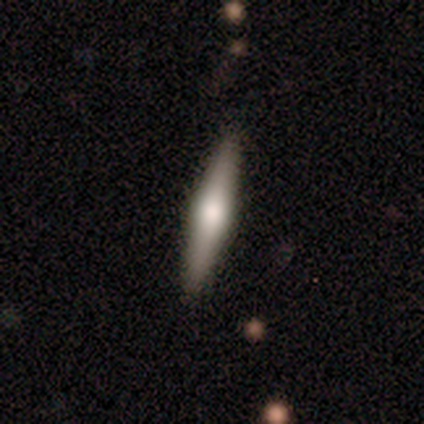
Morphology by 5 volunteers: type=featured or disk (100%); edge-on=yes (80%); edge-on bulge=rounded (100%); merging=none (80%).